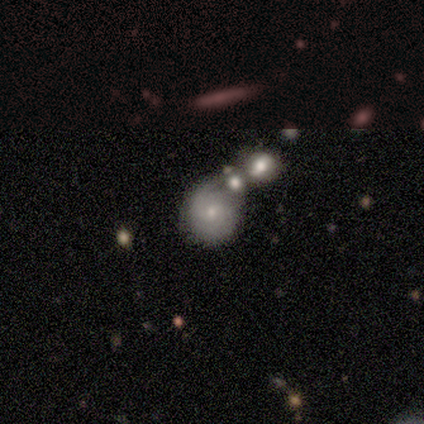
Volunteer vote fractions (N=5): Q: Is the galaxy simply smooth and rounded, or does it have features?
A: smooth — 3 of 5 (60%).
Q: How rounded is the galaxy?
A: round — 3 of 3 (100%).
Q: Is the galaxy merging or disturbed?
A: none — 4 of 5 (80%).